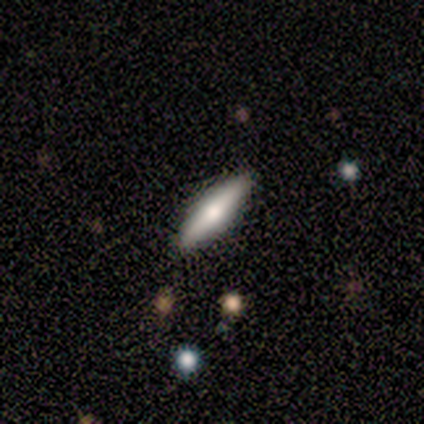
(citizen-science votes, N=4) A featured or disk galaxy (75%) viewed edge-on (100%) with a rounded central bulge (67%). Merging: none (100%).